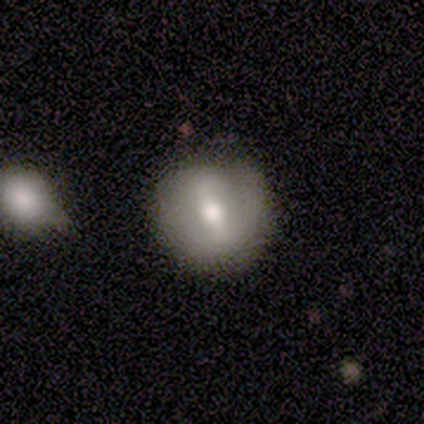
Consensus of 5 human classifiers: Overall: featured or disk (60%; smooth 40%). Edge-on disk: no (100%). Bar: weak (67%; strong 33%). Spiral arms: no (67%; yes 33%). Bulge size: moderate (100%). Merging: none (80%).